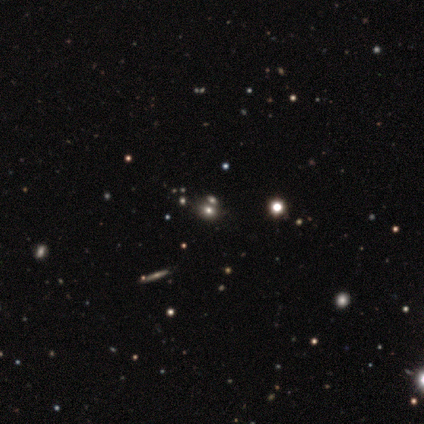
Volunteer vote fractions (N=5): smooth_or_featured: smooth (p=0.80) [alt: star or artifact p=0.20]
how_rounded: in between (p=0.75) [alt: round p=0.25]
merging: none (p=0.25) [tied with: minor disturbance p=0.25, major disturbance p=0.25, merger p=0.25]